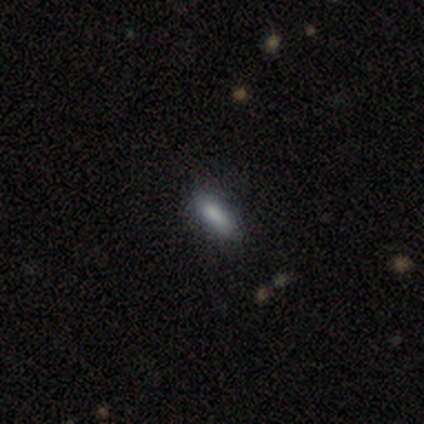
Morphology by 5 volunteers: Smooth or featured? 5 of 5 (100%) said smooth. How rounded? 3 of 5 (60%) said cigar-shaped. Merging? 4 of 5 (80%) said none.